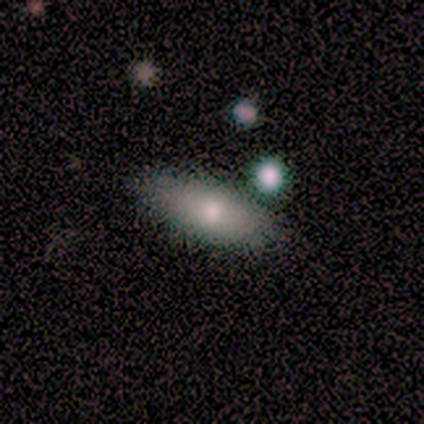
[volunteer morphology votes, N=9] Q: Smooth or featured?
A: smooth (89%); runner-up: featured or disk (11%)
Q: How rounded?
A: in between (75%); runner-up: cigar-shaped (25%)
Q: Merging?
A: none (78%); runner-up: merger (22%)